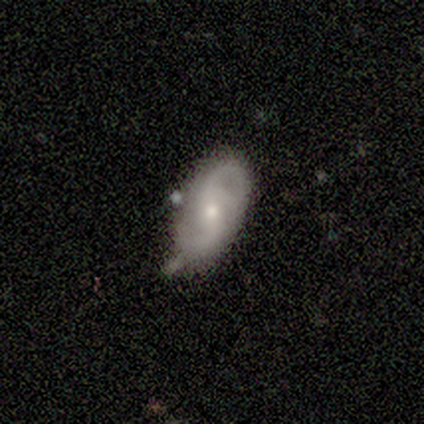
Volunteers were most divided on "bar": no: 42%, weak: 38%, strong: 19%. Remaining: spiral arms — yes (96%); edge-on disk — no (93%); spiral arm count — 2 (68%); smooth or featured — featured or disk (61%); bulge size — small (60%); merging — none (50%); spiral winding — loose (48%).